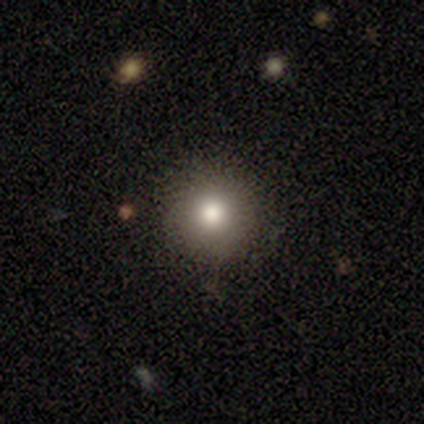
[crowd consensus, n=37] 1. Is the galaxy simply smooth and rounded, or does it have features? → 76% smooth, 14% featured or disk, 11% star or artifact.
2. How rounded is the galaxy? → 93% round, 7% in between, 0% cigar-shaped.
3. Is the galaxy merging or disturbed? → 91% none, 9% major disturbance, 0% minor disturbance, 0% merger.